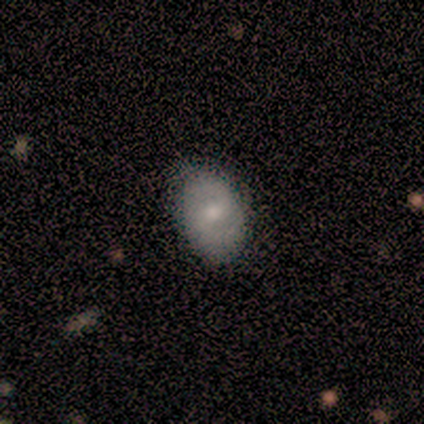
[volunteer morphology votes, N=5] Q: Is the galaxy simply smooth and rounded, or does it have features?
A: smooth — 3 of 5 (60%).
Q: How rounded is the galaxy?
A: in between — 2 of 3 (67%).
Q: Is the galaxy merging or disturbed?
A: none — 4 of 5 (80%).